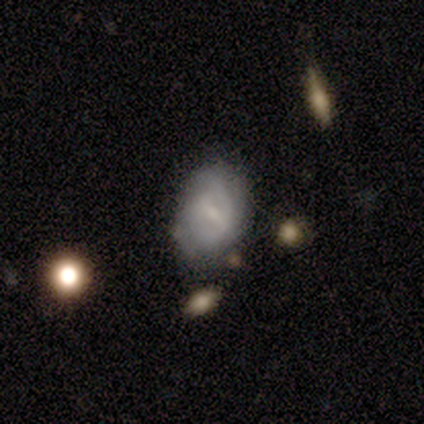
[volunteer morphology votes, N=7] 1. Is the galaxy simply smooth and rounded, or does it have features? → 71% featured or disk, 29% smooth, 0% star or artifact.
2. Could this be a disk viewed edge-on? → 100% no, 0% yes.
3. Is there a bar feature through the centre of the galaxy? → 60% weak, 20% strong, 20% no.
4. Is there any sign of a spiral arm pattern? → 100% yes, 0% no.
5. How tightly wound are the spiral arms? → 40% tight (tied), 40% medium (tied), 20% loose.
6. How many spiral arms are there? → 40% 1 (tied), 40% can't tell (tied), 20% 2, 0% 3, 0% 4, 0% more than 4.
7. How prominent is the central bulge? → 60% small, 20% moderate, 20% none, 0% dominant, 0% large.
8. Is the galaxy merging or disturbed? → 57% none, 29% minor disturbance, 14% merger, 0% major disturbance.